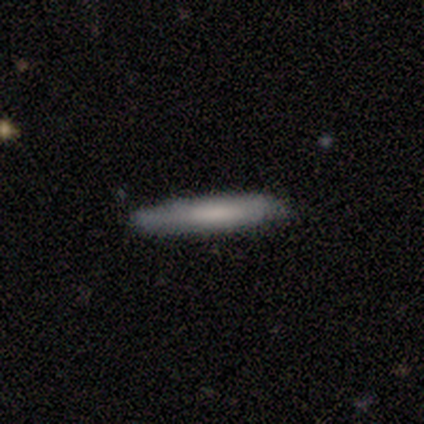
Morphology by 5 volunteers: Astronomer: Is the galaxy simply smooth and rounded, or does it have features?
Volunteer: smooth — 80%.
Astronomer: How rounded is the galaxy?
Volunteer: cigar-shaped — 100%.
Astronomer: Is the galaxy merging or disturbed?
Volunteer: none — 100%.